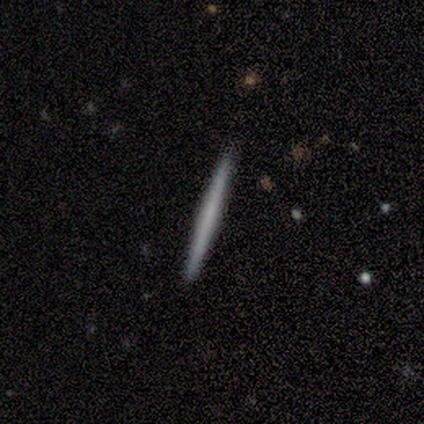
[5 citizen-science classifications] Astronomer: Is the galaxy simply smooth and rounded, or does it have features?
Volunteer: smooth — 60% (runner-up: featured or disk, 40%).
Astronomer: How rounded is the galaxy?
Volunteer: cigar-shaped — 100%.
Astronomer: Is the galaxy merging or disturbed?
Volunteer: none — 100%.